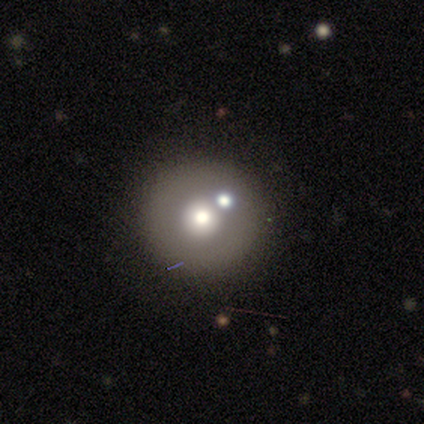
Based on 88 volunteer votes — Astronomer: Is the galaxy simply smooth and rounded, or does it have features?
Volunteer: smooth — 53%.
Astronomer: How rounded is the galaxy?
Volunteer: round — 100%.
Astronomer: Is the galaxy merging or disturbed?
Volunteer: none — 70%.